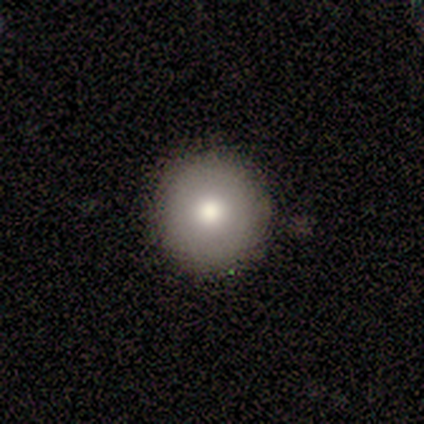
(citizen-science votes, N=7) Overall: smooth (86%). How rounded: round (100%). Merging: none (100%).